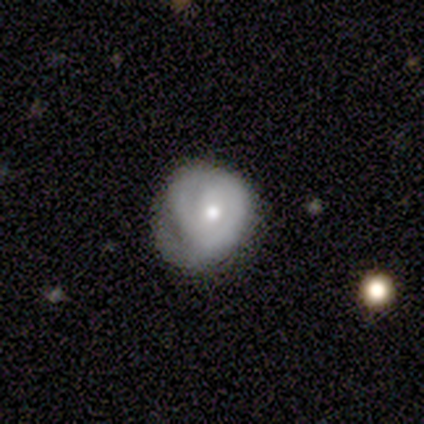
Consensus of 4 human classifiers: Smooth or featured?
  - featured or disk: 100% *
  - smooth: 0%
  - star or artifact: 0%
Edge-on disk?
  - no: 100% *
  - yes: 0%
Bar?
  - weak: 50% * (tied)
  - no: 50% * (tied)
  - strong: 0%
Spiral arms?
  - yes: 100% *
  - no: 0%
Spiral winding?
  - tight: 75% *
  - medium: 25%
  - loose: 0%
Spiral arm count?
  - 2: 50% * (tied)
  - can't tell: 50% * (tied)
  - 1: 0%
  - 3: 0%
  - 4: 0%
  - more than 4: 0%
Bulge size?
  - moderate: 75% *
  - small: 25%
  - dominant: 0%
  - large: 0%
  - none: 0%
Merging?
  - none: 50% * (tied)
  - minor disturbance: 50% * (tied)
  - major disturbance: 0%
  - merger: 0%